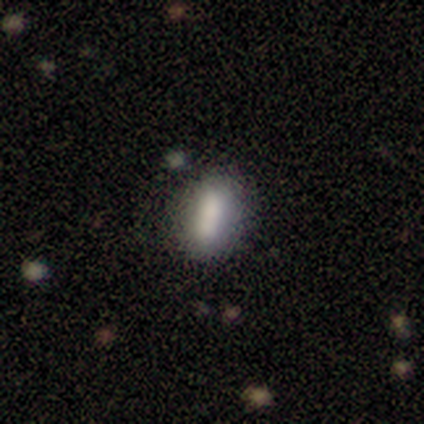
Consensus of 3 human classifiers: Smooth or featured: smooth — 67% (star or artifact — 33%)
How rounded: in between — 100%
Merging: none — 50% (tied with minor disturbance — 50%)